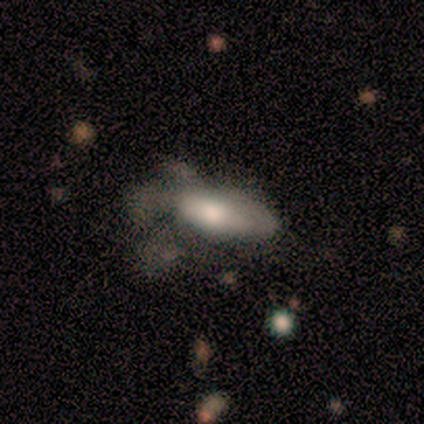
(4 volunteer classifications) smooth-or-featured: smooth: 75% | featured or disk: 25% | star or artifact: 0%
  how-rounded: in between: 100% | round: 0% | cigar-shaped: 0%
  merging: minor disturbance: 50% | major disturbance: 25% | merger: 25% | none: 0%